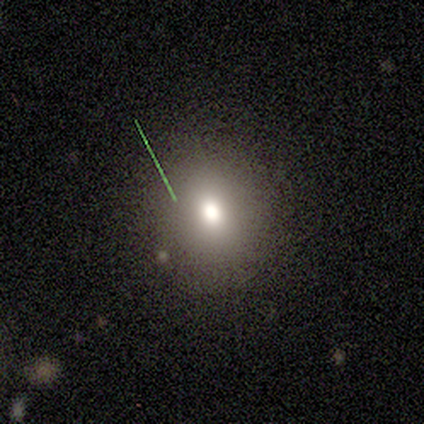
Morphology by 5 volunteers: This is likely a smooth galaxy (60%). How rounded: likely round (67%). Merging: likely none (60%).